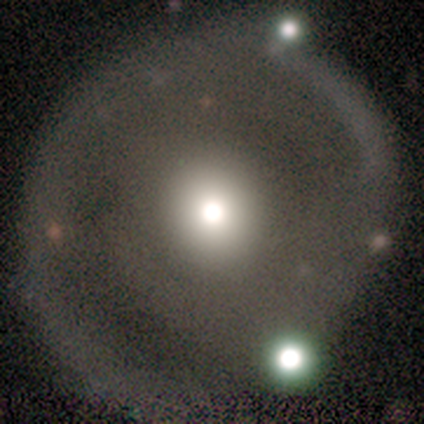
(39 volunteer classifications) Smooth or featured? 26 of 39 (67%) said featured or disk. Edge-on disk? 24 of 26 (92%) said no. Bar? 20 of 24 (83%) said no. Spiral arms? 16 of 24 (67%) said yes. Spiral winding? 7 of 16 (44%) said tight. Spiral arm count? 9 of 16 (56%) said 1. Bulge size? 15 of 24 (62%) said moderate. Merging? 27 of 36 (75%) said none.